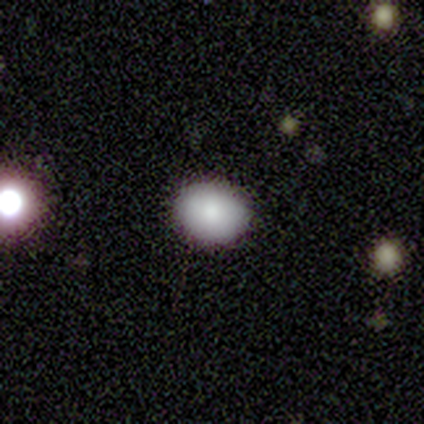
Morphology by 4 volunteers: A smooth galaxy with no disk features (75%) that is round (67%). Merging: none (50%, tied with minor disturbance).